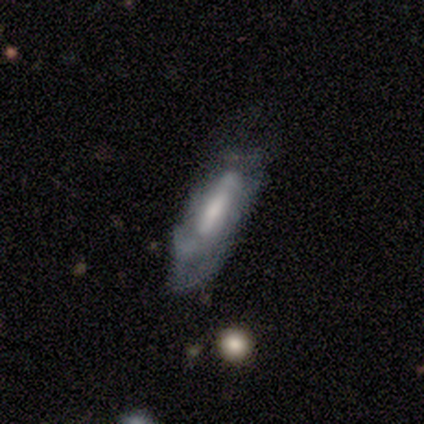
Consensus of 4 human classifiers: Morphology: type=featured or disk (75%); edge-on=no (67%); bar=strong (50%, tied with weak); spiral arms=yes (50%, tied with no); winding=loose (100%); arm count=2 (100%); bulge=moderate (50%, tied with small); merging=none (50%, tied with minor disturbance).